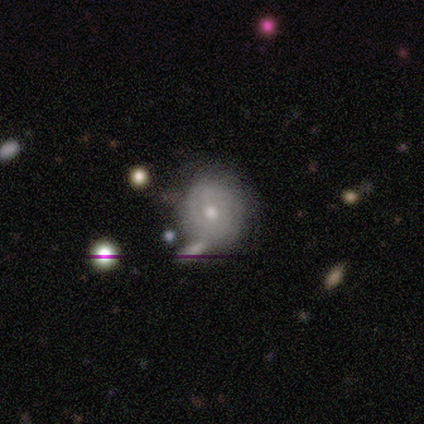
smooth 75%, featured or disk 25%, star or artifact 0%. Down the decision tree: how rounded — round (67%); merging — none (100%).